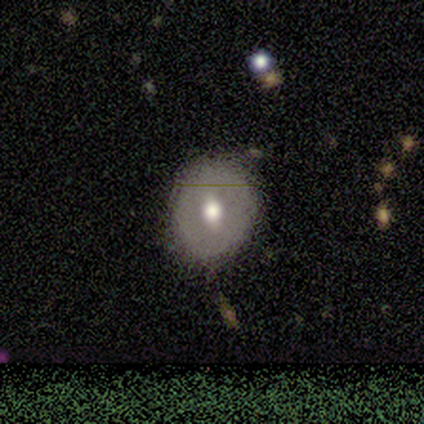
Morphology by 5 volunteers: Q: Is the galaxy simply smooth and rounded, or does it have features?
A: smooth — 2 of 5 (40%, tied with star or artifact).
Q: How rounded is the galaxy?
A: round — 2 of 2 (100%).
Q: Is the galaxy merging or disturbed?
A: none — 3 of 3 (100%).